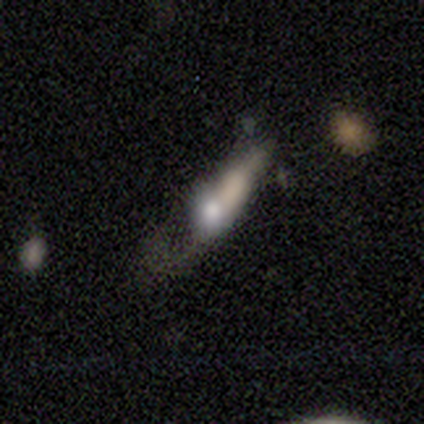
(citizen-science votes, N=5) Smooth or featured? smooth (80%)
How rounded? in between (100%)
Merging? major disturbance (40%, tied with merger)